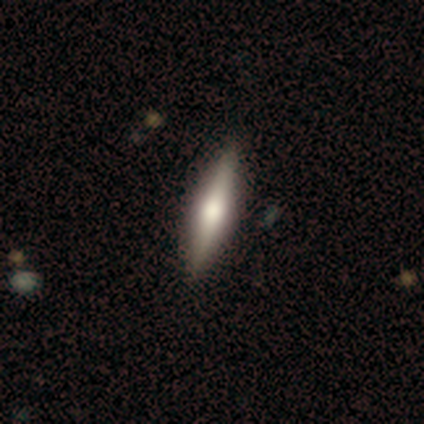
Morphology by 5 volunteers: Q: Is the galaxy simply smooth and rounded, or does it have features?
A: smooth — 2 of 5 (40%, tied with featured or disk).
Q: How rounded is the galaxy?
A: cigar-shaped — 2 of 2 (100%).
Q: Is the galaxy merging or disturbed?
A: none — 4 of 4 (100%).